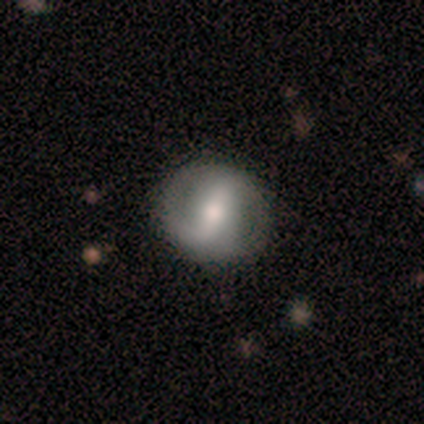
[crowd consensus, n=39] This appears to be a featured or disk galaxy (69%) with a strong bar (60%), 2 (89%) loose (47%) spiral arms (76%) and a moderate central bulge (52%). Merging: none (84%).